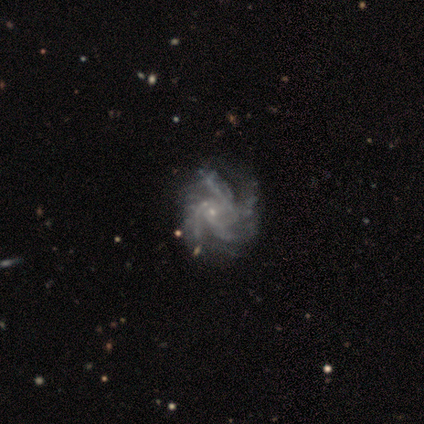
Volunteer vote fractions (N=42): This is clearly a featured or disk galaxy (93%). It is clearly not viewed edge-on (100%). Bar: likely no (79%). Spiral arm pattern: clearly yes (100%). Spiral arm count: possibly 4 (54%). Spiral winding: marginally medium (41%). Central bulge: likely small (77%). Merging: marginally none (42%).